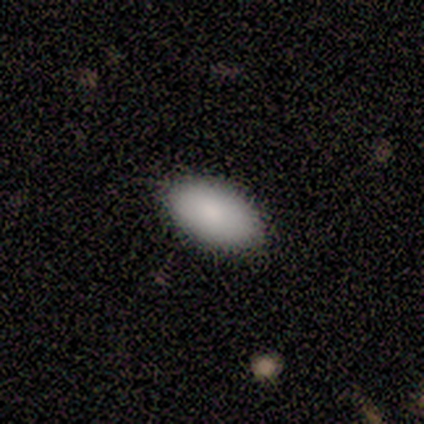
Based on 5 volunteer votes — smooth 100%, featured or disk 0%, star or artifact 0%. Down the decision tree: how rounded — in between (100%); merging — none (100%).